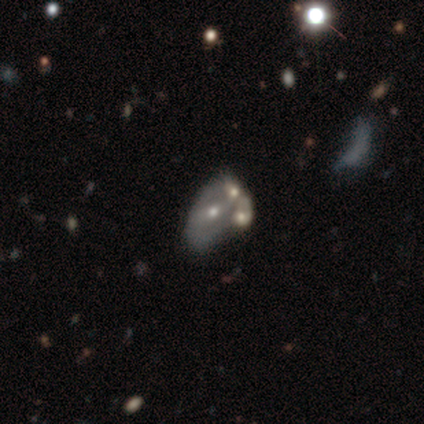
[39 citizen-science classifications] A featured or disk galaxy (67%) with no bar (65%), no spiral arms (62%) and a small central bulge (50%). Merging: merger (43%).